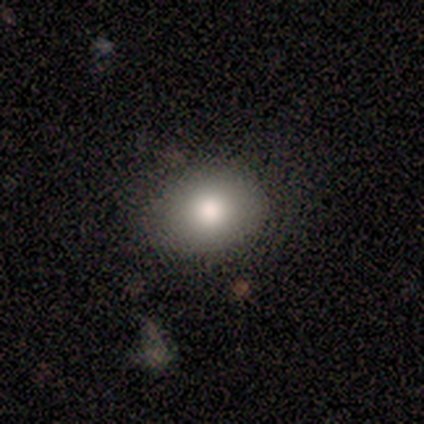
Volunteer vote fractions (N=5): Morphology: type=smooth (100%); roundness=in between (60%); merging=none (100%).